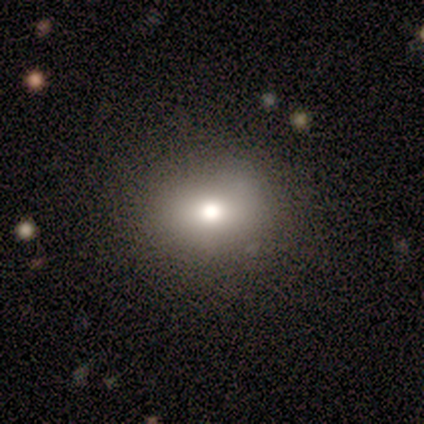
This appears to be a smooth galaxy with no disk features (71%) that is round (60%). Merging: none (100%).